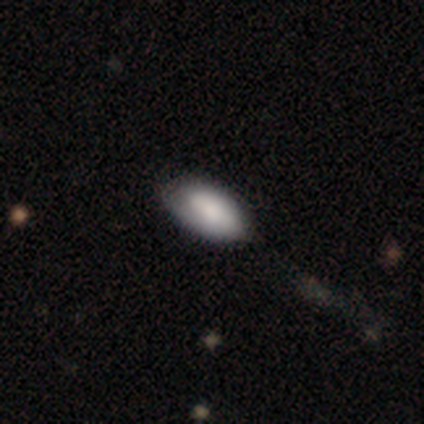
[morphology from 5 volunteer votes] Smooth or featured? smooth (80%)
How rounded? in between (100%)
Merging? none (100%)